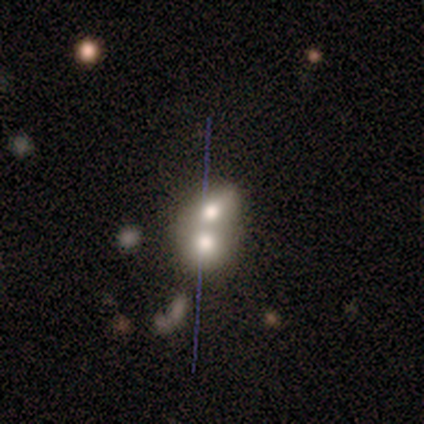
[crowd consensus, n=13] A smooth galaxy with no disk features (38%, tied with featured or disk) that is in between round and cigar-shaped (80%).

Vote fractions:
- Smooth or featured? smooth: 38% (tied) / featured or disk: 38% (tied) / star or artifact: 23%
- How rounded? in between: 80% / round: 20% / cigar-shaped: 0%
- Merging? merger: 80% / none: 10% / minor disturbance: 10% / major disturbance: 0%